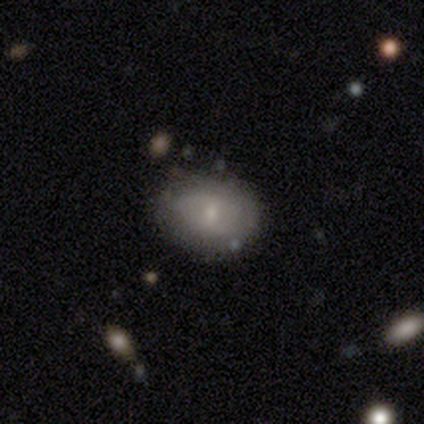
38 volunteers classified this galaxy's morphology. smooth-or-featured: smooth: 61% | featured or disk: 34% | star or artifact: 5%
  how-rounded: in between: 70% | round: 30% | cigar-shaped: 0%
  merging: none: 81% | minor disturbance: 14% | major disturbance: 3% | merger: 3%